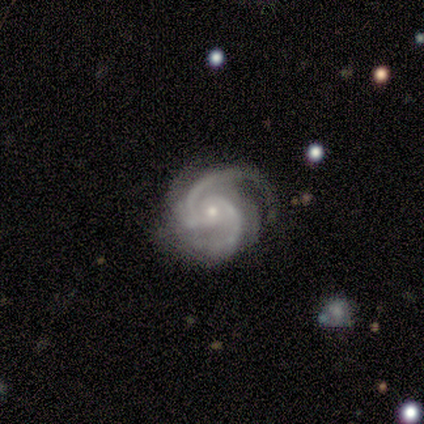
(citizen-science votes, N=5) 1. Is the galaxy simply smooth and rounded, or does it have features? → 100% featured or disk, 0% smooth, 0% star or artifact.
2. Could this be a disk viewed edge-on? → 100% no, 0% yes.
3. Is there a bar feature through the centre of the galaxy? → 60% no, 40% strong, 0% weak.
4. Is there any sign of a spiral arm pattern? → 100% yes, 0% no.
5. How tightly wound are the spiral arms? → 60% tight, 40% medium, 0% loose.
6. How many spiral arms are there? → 80% 2, 20% 4, 0% 1, 0% 3, 0% more than 4, 0% can't tell.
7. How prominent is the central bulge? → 60% small, 40% moderate, 0% dominant, 0% large, 0% none.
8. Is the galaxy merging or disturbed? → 80% none, 20% minor disturbance, 0% major disturbance, 0% merger.